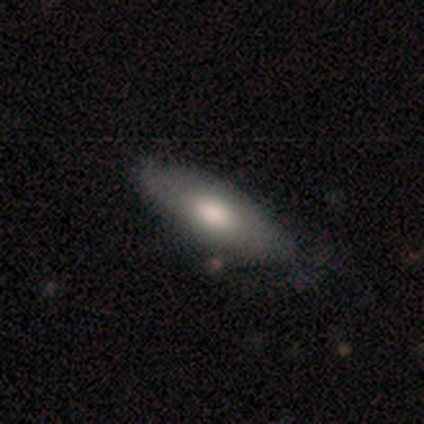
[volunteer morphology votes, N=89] Smooth or featured?
  - smooth: 67% *
  - featured or disk: 24%
  - star or artifact: 9%
How rounded?
  - in between: 65% *
  - cigar-shaped: 35%
  - round: 0%
Merging?
  - none: 77% *
  - minor disturbance: 19%
  - major disturbance: 4%
  - merger: 1%